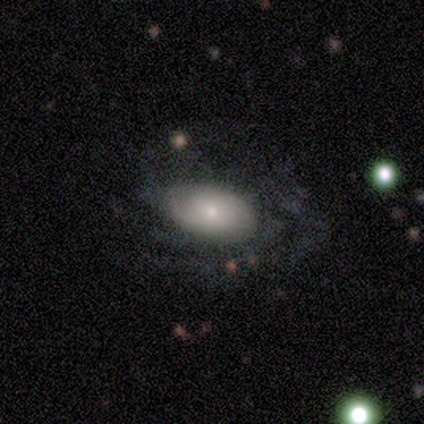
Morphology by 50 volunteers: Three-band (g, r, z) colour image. It shows a featured or disk galaxy (52%) with no bar (83%), tight (40%, tied with medium) spiral arms (65%) and a small central bulge (57%). Merging: none (69%).